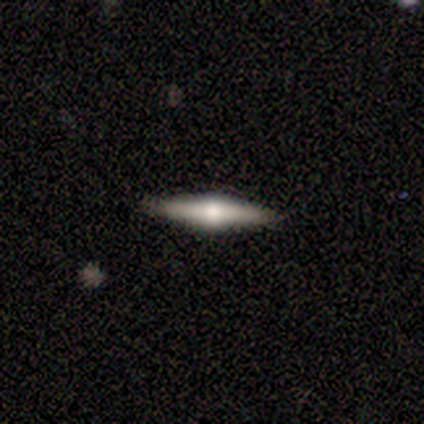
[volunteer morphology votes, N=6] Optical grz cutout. It shows a featured or disk galaxy (50%) viewed edge-on (100%) with a rounded central bulge (67%). Merging: none (100%).